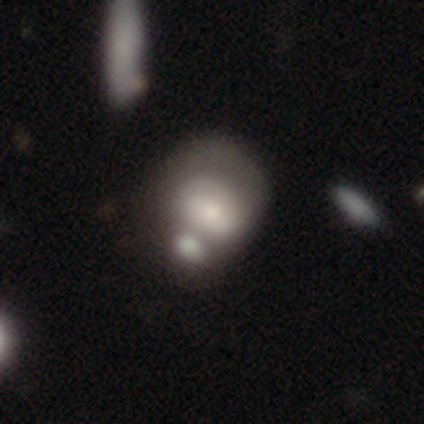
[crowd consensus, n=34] Smooth or featured?
  - smooth: 47% *
  - featured or disk: 44%
  - star or artifact: 9%
How rounded?
  - in between: 75% *
  - round: 25%
  - cigar-shaped: 0%
Merging?
  - merger: 48% *
  - none: 26%
  - major disturbance: 16%
  - minor disturbance: 10%